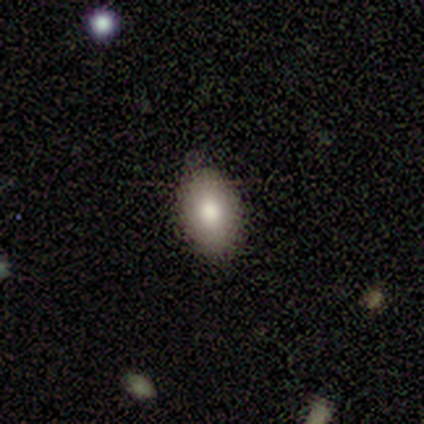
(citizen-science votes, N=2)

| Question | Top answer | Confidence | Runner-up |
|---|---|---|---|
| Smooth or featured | smooth | 50% | tied: star or artifact (50%) |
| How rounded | in between | 100% | — |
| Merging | none | 100% | — |